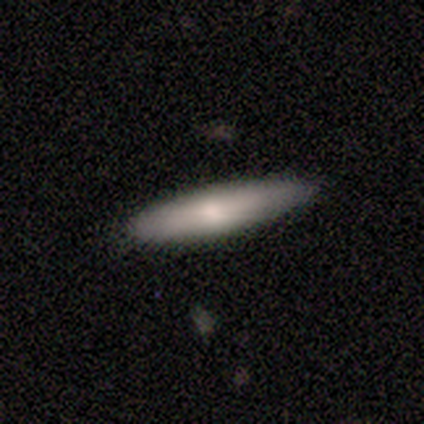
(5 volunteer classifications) This appears to be a smooth galaxy with no disk features (60%) that is cigar-shaped (100%). Merging: none (60%).